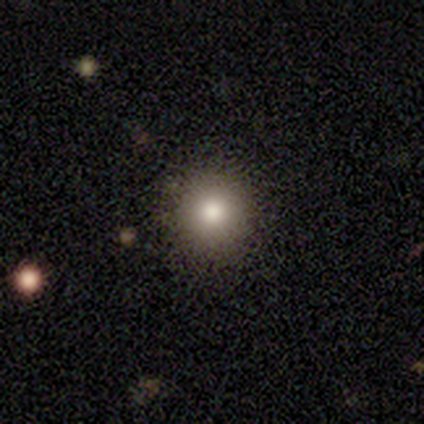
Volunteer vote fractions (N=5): Volunteers were most divided on "how rounded" (2-way tie): round: 50%, in between: 50%, cigar-shaped: 0%; "merging" (2-way tie): none: 50%, minor disturbance: 50%, major disturbance: 0%, merger: 0%. More confident: smooth or featured — smooth (80%).